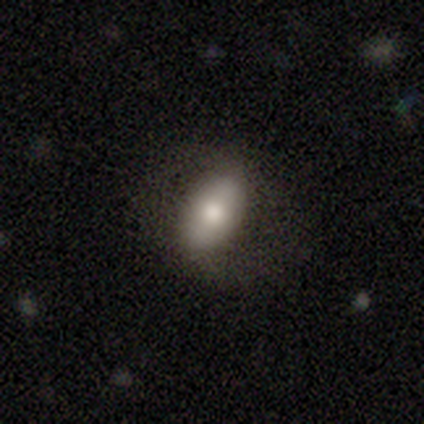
Q: Smooth or featured?
A: smooth (67%); runner-up: featured or disk (31%)
Q: How rounded?
A: in between (96%); runner-up: cigar-shaped (4%)
Q: Merging?
A: none (66%); runner-up: minor disturbance (24%)